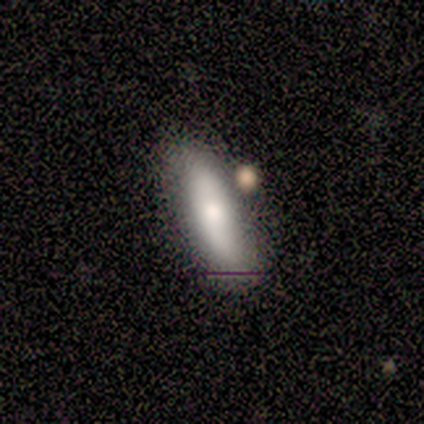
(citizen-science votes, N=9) Smooth or featured?
  - smooth: 78% *
  - featured or disk: 11%
  - star or artifact: 11%
How rounded?
  - in between: 57% *
  - cigar-shaped: 43%
  - round: 0%
Merging?
  - none: 88% *
  - merger: 12%
  - minor disturbance: 0%
  - major disturbance: 0%